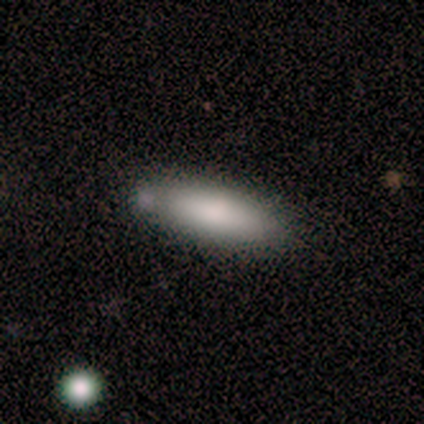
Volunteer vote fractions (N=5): Q: Smooth or featured?
A: smooth (80%); runner-up: featured or disk (20%)
Q: How rounded?
A: cigar-shaped (100%)
Q: Merging?
A: none (80%); runner-up: merger (20%)